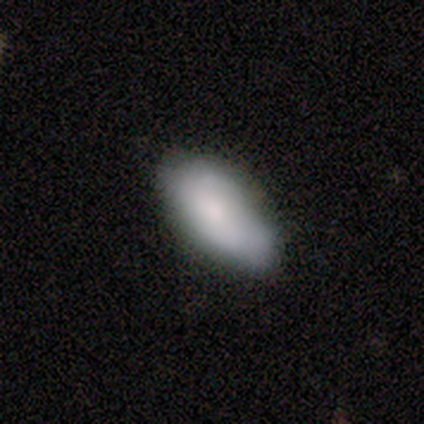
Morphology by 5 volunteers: A smooth galaxy with no disk features (40%, tied with star or artifact) that is in between round and cigar-shaped (100%).

Vote fractions:
- Smooth or featured? smooth: 40% (tied) / star or artifact: 40% (tied) / featured or disk: 20%
- How rounded? in between: 100% / round: 0% / cigar-shaped: 0%
- Merging? none: 67% / minor disturbance: 33% / major disturbance: 0% / merger: 0%